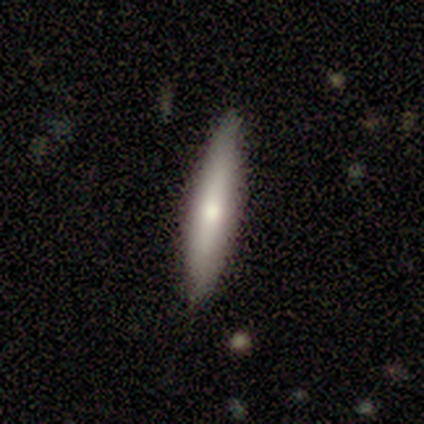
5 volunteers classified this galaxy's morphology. smooth 60%, featured or disk 40%, star or artifact 0%. Down the decision tree: how rounded — cigar-shaped (100%); merging — none (80%).